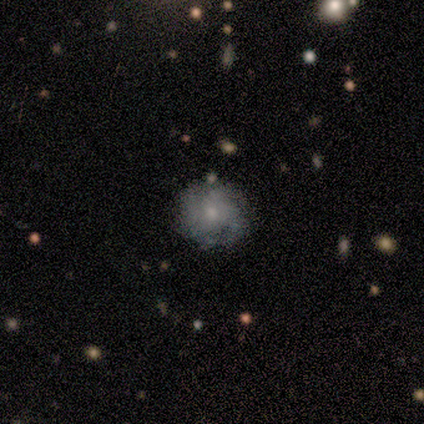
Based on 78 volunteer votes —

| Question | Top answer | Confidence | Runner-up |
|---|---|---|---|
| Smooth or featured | featured or disk | 59% | smooth (29%) |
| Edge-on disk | no | 96% | yes (4%) |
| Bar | no | 86% | weak (14%) |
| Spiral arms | yes | 86% | no (14%) |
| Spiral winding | tight | 50% | medium (39%) |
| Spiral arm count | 3 | 39% | can't tell (37%) |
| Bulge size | moderate | 48% | small (41%) |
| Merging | none | 77% | minor disturbance (19%) |